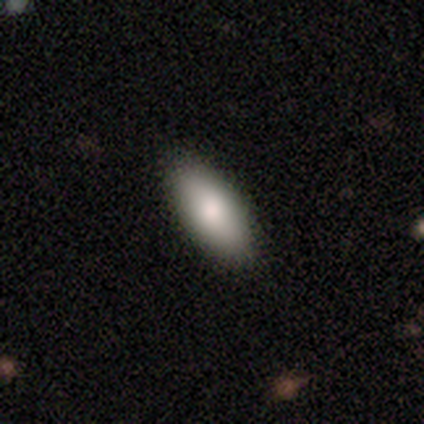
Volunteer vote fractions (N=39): Smooth or featured? 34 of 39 (87%) said smooth. How rounded? 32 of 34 (94%) said in between. Merging? 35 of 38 (92%) said none.